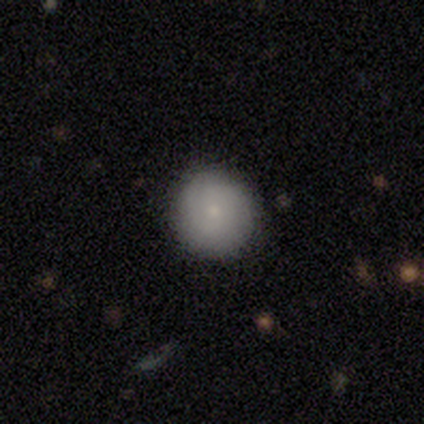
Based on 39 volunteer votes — A smooth galaxy with no disk features (79%) that is round (97%).

Vote fractions:
- Smooth or featured? smooth: 79% / featured or disk: 15% / star or artifact: 5%
- How rounded? round: 97% / in between: 3% / cigar-shaped: 0%
- Merging? none: 70% / major disturbance: 5% / minor disturbance: 3% / merger: 3%